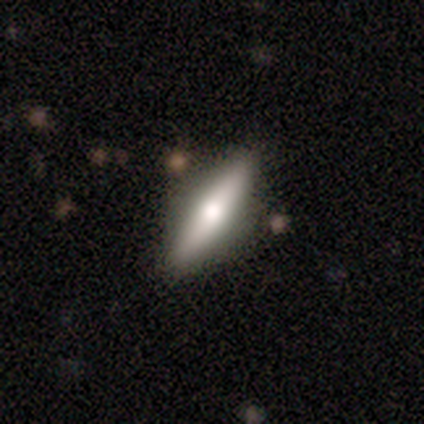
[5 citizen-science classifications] Smooth or featured? 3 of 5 (60%) said smooth. How rounded? 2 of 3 (67%) said cigar-shaped. Merging? 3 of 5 (60%) said none.